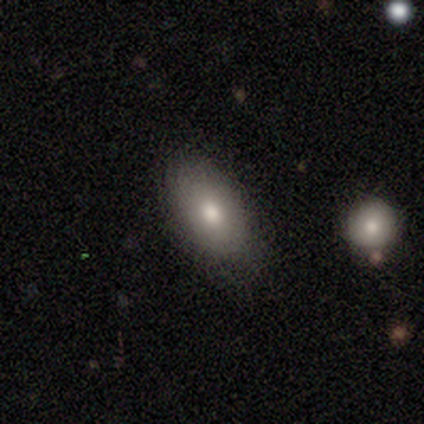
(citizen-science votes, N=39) Overall: smooth (74%). How rounded: in between (93%). Merging: none (78%).